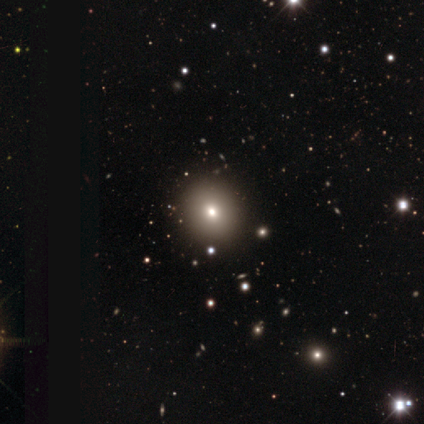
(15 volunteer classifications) smooth_or_featured: smooth (p=0.80) [alt: star or artifact p=0.13]
how_rounded: round (p=0.92) [alt: in between p=0.08]
merging: none (p=1.00)